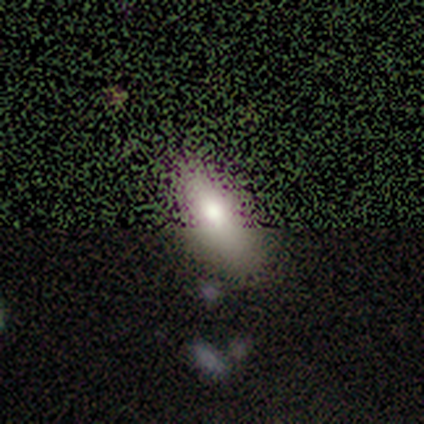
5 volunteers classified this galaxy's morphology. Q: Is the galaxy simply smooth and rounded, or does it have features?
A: smooth — 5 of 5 (100%).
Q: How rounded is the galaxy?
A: in between — 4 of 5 (80%).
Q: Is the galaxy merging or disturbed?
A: none — 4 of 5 (80%).